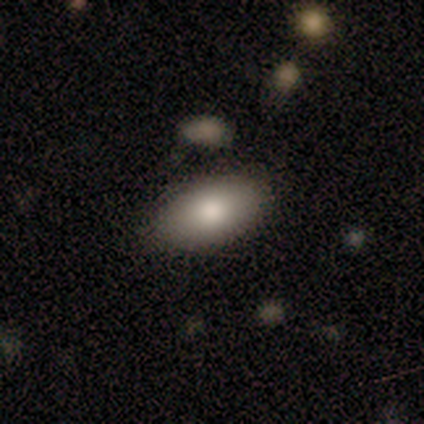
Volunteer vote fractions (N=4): A smooth galaxy with no disk features (75%) that is in between round and cigar-shaped (100%). Merging: none (50%, tied with minor disturbance).